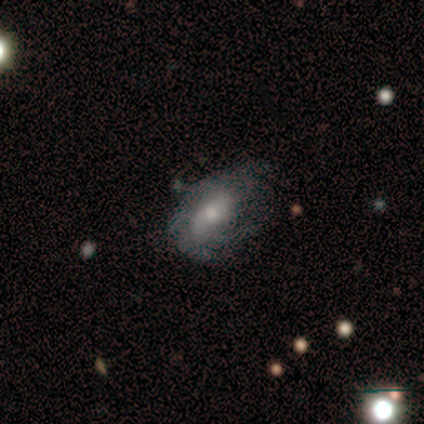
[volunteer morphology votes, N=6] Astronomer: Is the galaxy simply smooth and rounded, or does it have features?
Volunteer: featured or disk — 67%.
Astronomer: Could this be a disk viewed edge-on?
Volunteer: no — 100%.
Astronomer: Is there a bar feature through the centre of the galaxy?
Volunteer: weak — 50%.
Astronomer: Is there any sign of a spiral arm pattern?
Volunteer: yes — 100%.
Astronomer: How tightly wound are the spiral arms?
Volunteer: tight — 50%, tied with medium at 50%.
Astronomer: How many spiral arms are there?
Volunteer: can't tell — 100%.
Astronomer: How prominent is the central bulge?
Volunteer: small — 75%.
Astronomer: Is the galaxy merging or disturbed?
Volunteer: minor disturbance — 60% (runner-up: none, 40%).